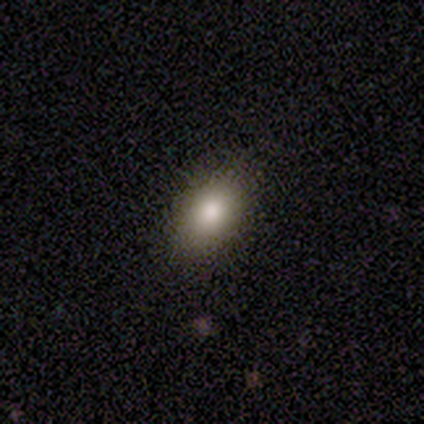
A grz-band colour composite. It shows a smooth galaxy with no disk features (100%) that is in between round and cigar-shaped (100%). Merging: none (100%).